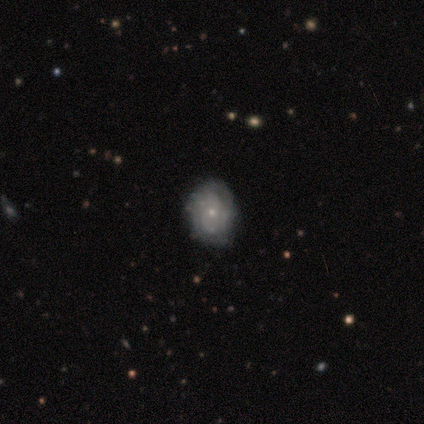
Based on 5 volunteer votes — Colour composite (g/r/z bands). It shows a featured or disk galaxy (80%) with no bar (100%), tight (100%) spiral arms (75%) and a small central bulge (100%). Merging: none (80%).